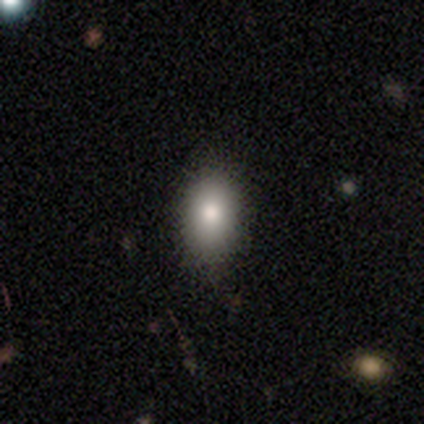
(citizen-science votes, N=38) smooth-or-featured: smooth: 84% | featured or disk: 8% | star or artifact: 8%
  how-rounded: in between: 66% | round: 31% | cigar-shaped: 3%
  merging: none: 91% | major disturbance: 6% | minor disturbance: 3% | merger: 0%